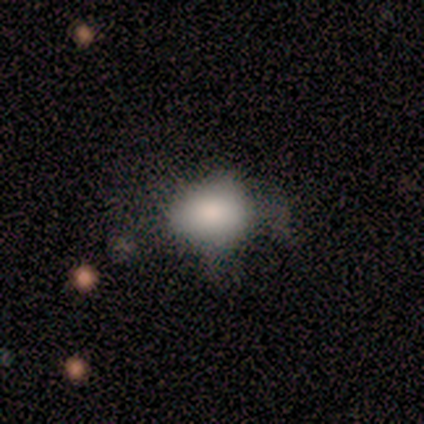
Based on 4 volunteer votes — Smooth or featured? smooth (50%, tied with featured or disk)
How rounded? round (50%, tied with in between)
Merging? minor disturbance (50%)